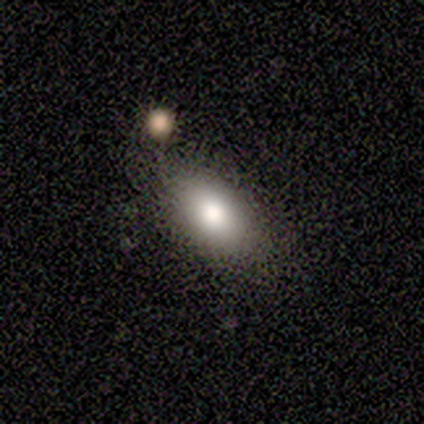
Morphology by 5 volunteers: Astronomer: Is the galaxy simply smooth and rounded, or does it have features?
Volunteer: smooth — 100%.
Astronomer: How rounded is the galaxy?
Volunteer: in between — 100%.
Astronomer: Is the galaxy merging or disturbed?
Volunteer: none — 60%.